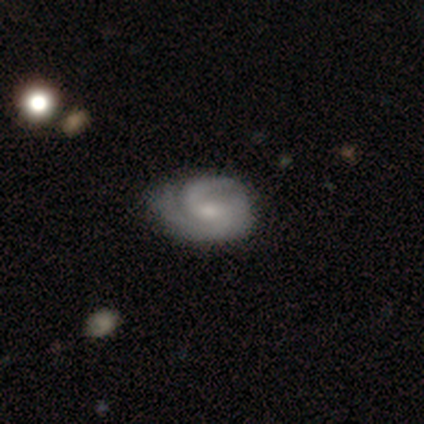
Morphology: type=featured or disk (67%); edge-on=no (100%); bar=strong (50%, tied with no); spiral arms=yes (100%); winding=tight (50%, tied with medium); arm count=2 (50%, tied with 3); bulge=small (50%, tied with none); merging=none (67%).